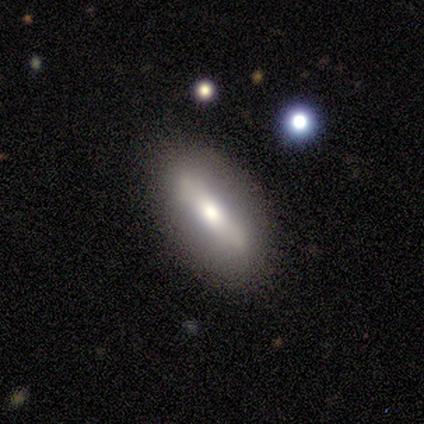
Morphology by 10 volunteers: Smooth or featured: smooth — 60% (featured or disk — 40%)
How rounded: in between — 83% (cigar-shaped — 17%)
Merging: none — 70% (minor disturbance — 20%)